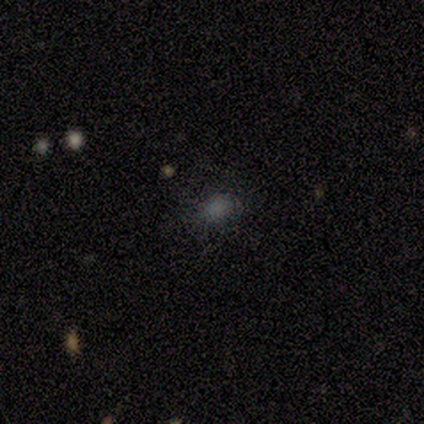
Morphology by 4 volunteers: Smooth or featured: smooth — 100%
How rounded: in between — 100%
Merging: none — 75% (minor disturbance — 25%)